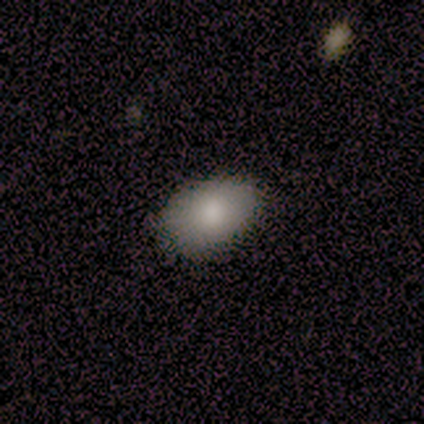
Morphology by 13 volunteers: Volunteers were most divided on "merging": none: 58%, minor disturbance: 42%, major disturbance: 0%, merger: 0%. More confident: how rounded — in between (100%); smooth or featured — smooth (85%).